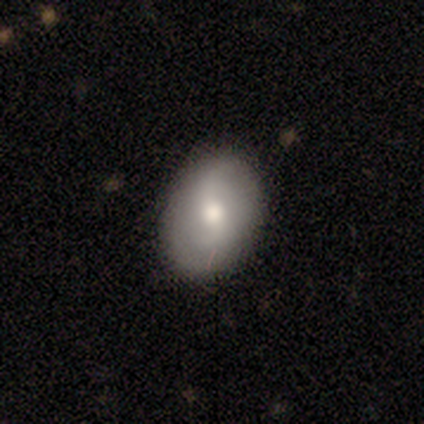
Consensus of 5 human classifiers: Q: Smooth or featured?
A: smooth (40%); tied with: featured or disk (40%)
Q: How rounded?
A: round (50%); tied with: in between (50%)
Q: Merging?
A: none (75%); runner-up: minor disturbance (25%)